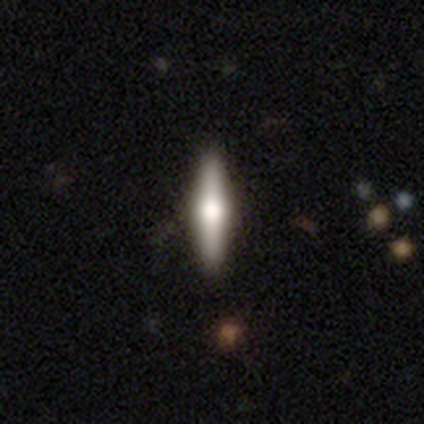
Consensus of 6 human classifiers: This is likely a featured or disk galaxy (67%). It is clearly viewed edge-on (100%). Edge-on bulge: clearly rounded (100%). Merging: clearly none (100%).